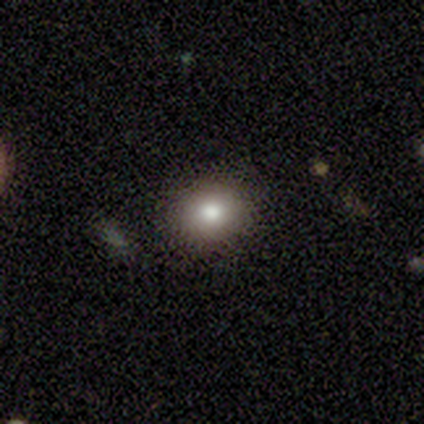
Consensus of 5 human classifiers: This is clearly a smooth galaxy (100%). How rounded: likely in between (60%). Merging: clearly none (80%).